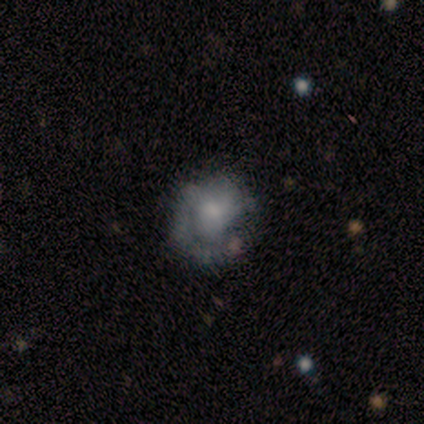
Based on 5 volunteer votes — smooth-or-featured: smooth: 80% | featured or disk: 20% | star or artifact: 0%
  how-rounded: round: 100% | in between: 0% | cigar-shaped: 0%
  merging: none: 60% | minor disturbance: 20% | major disturbance: 20% | merger: 0%